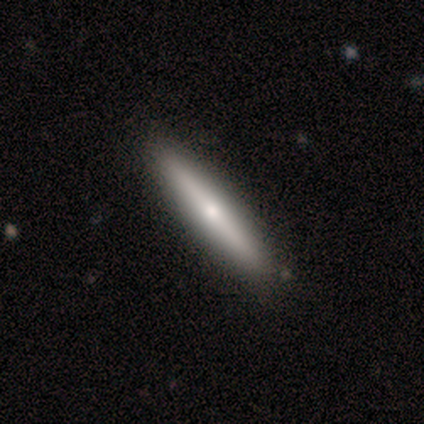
Q: Smooth or featured?
A: featured or disk (60%); runner-up: smooth (20%)
Q: Edge-on disk?
A: yes (100%)
Q: Edge-on bulge?
A: rounded (100%)
Q: Merging?
A: none (100%)